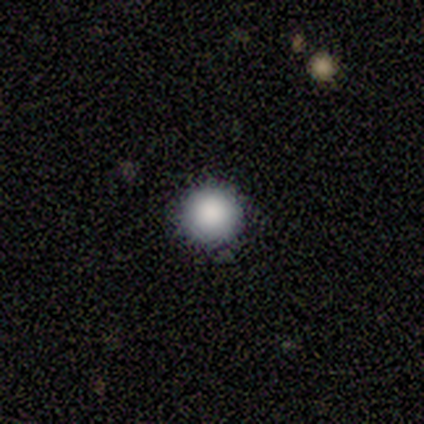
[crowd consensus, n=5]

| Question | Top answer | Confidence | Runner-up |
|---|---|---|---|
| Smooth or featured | smooth | 100% | — |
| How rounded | round | 100% | — |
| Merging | none | 100% | — |